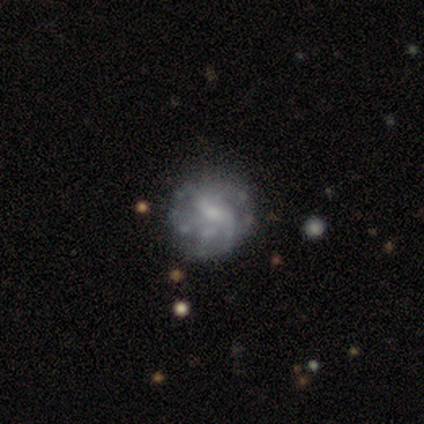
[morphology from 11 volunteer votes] featured or disk 64%, smooth 36%, star or artifact 0%. Down the decision tree: edge-on disk — no (100%); bar — weak (71%); spiral arms — yes (71%); spiral arm count — 2 (60%); spiral winding — tight (80%); bulge size — small (57%); merging — none (82%).